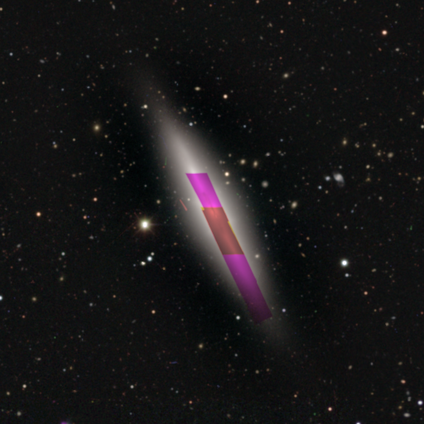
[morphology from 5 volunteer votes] smooth_or_featured: featured or disk (p=0.40) [tied with: star or artifact p=0.40]
disk_edge_on: yes (p=1.00)
edge_on_bulge: boxy (p=0.50) [tied with: rounded p=0.50]
merging: none (p=0.67) [alt: minor disturbance p=0.33]